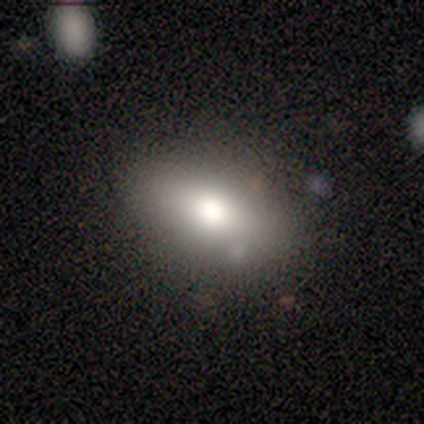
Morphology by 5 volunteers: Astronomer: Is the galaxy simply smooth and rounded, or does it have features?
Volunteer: smooth — 60% (runner-up: featured or disk, 40%).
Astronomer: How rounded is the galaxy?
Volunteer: in between — 67%.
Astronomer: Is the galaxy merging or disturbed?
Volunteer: none — 60%.